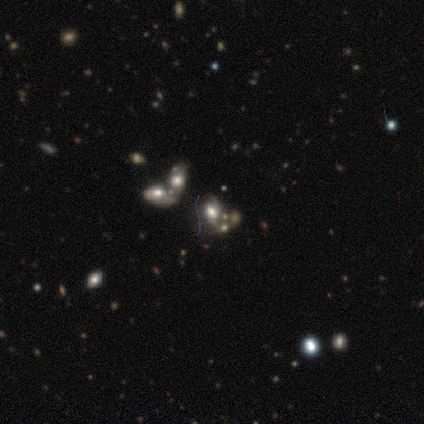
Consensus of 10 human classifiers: Smooth or featured? 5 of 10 (50%) said smooth. How rounded? 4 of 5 (80%) said in between. Merging? 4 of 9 (44%, tied with merger) said none.